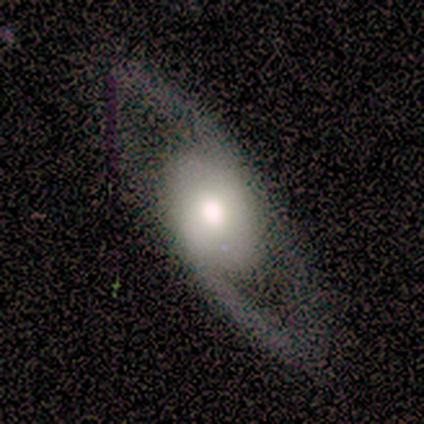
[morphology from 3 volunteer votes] This is likely a featured or disk galaxy (67%). It is clearly not viewed edge-on (100%). Bar: clearly no (100%). Spiral arm pattern: possibly yes (50%, tied with no). Spiral arm count: clearly 1 (100%). Spiral winding: clearly loose (100%). Central bulge: possibly large (50%, tied with moderate). Merging: marginally none (33%, tied with minor disturbance and major disturbance).